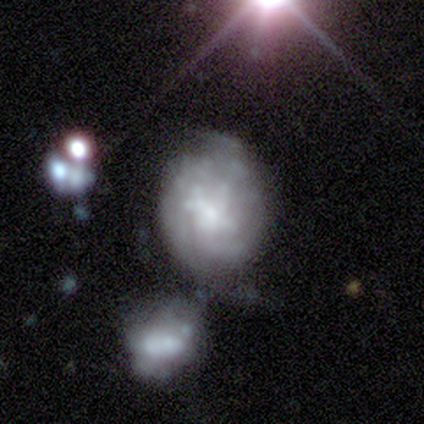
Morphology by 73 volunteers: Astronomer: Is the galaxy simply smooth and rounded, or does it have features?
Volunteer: featured or disk — 75%.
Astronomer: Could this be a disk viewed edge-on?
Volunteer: no — 98%.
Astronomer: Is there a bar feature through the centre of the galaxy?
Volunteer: no — 70%.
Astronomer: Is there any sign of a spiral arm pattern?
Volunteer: yes — 50%, tied with no at 50%.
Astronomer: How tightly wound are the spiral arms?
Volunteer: tight — 52% (runner-up: medium, 44%).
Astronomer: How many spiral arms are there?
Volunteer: can't tell — 67%.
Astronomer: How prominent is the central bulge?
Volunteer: small — 41% (runner-up: moderate, 33%).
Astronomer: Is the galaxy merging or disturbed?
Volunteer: merger — 41% (runner-up: minor disturbance, 24%).